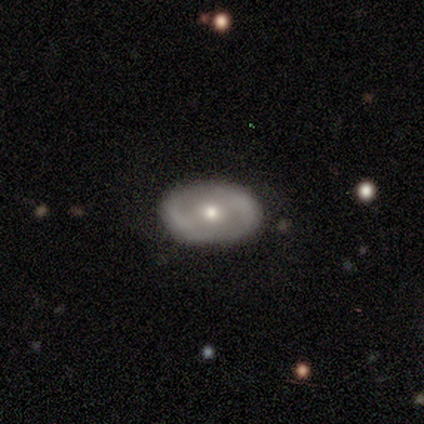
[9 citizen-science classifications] Smooth or featured?
  - featured or disk: 67% *
  - smooth: 33%
  - star or artifact: 0%
Edge-on disk?
  - no: 100% *
  - yes: 0%
Bar?
  - strong: 33% * (tied)
  - weak: 33% * (tied)
  - no: 33% * (tied)
Spiral arms?
  - yes: 50% * (tied)
  - no: 50% * (tied)
Spiral winding?
  - medium: 67% *
  - tight: 33%
  - loose: 0%
Spiral arm count?
  - 2: 100% *
  - 1: 0%
  - 3: 0%
  - 4: 0%
  - more than 4: 0%
  - can't tell: 0%
Bulge size?
  - moderate: 50% * (tied)
  - small: 50% * (tied)
  - dominant: 0%
  - large: 0%
  - none: 0%
Merging?
  - none: 100% *
  - minor disturbance: 0%
  - major disturbance: 0%
  - merger: 0%